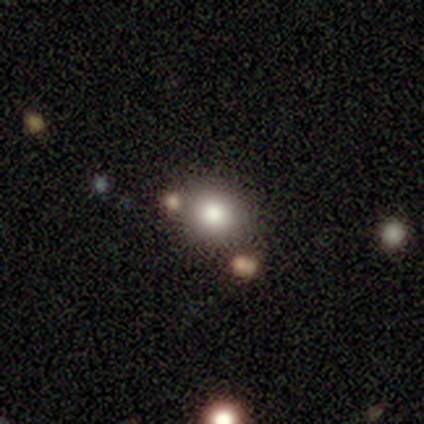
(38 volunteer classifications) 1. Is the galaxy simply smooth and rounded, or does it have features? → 84% smooth, 13% star or artifact, 3% featured or disk.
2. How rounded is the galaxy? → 75% round, 25% in between, 0% cigar-shaped.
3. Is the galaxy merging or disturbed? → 79% none, 9% minor disturbance, 9% merger, 3% major disturbance.